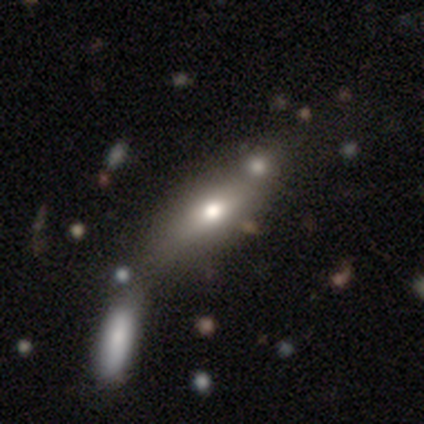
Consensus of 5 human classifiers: Smooth or featured? 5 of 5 (100%) said smooth. How rounded? 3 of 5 (60%) said in between. Merging? 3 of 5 (60%) said none.